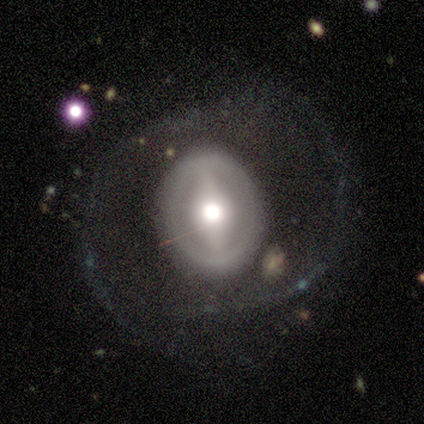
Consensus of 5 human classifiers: Volunteers were most divided on "smooth or featured" (2-way tie): featured or disk: 40%, star or artifact: 40%, smooth: 20%; "bulge size" (2-way tie): dominant: 50%, moderate: 50%, large: 0%, small: 0%, none: 0%; "merging" (3-way tie): none: 33%, major disturbance: 33%, merger: 33%, minor disturbance: 0%. More confident: edge-on disk — no (100%); bar — strong (100%); spiral arms — no (100%).